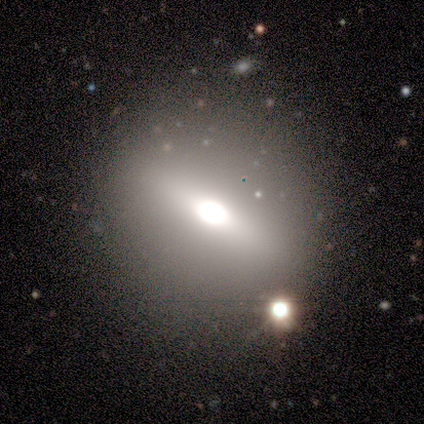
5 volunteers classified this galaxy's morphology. Overall: smooth (80%). How rounded: round (75%). Merging: none (75%).